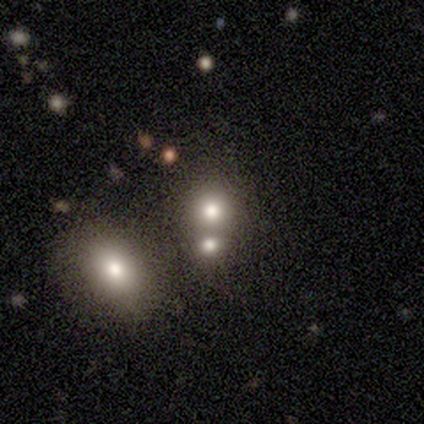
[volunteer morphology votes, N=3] smooth 100%, featured or disk 0%, star or artifact 0%. Down the decision tree: how rounded — in between (67%); merging — merger (67%).